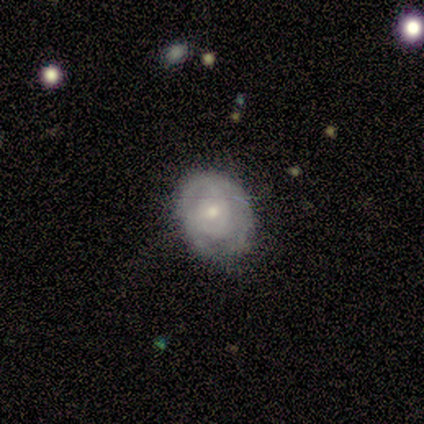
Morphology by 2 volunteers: Volunteers were most divided on "merging" (2-way tie): none: 50%, minor disturbance: 50%, major disturbance: 0%, merger: 0%. More confident: smooth or featured — featured or disk (100%); edge-on disk — no (100%); bar — no (100%); spiral arms — yes (100%); spiral winding — tight (100%); spiral arm count — 2 (100%); bulge size — small (100%).